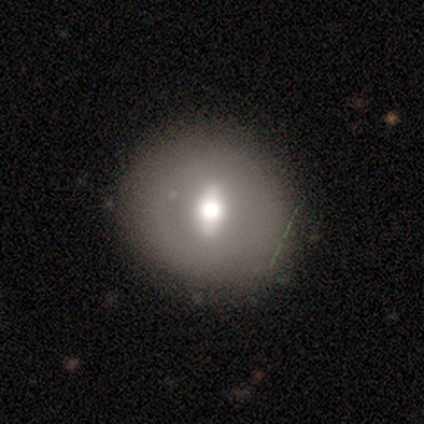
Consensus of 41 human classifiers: Morphology: type=featured or disk (63%); edge-on=no (88%); bar=strong (48%); spiral arms=no (96%); bulge=moderate (61%); merging=none (59%).